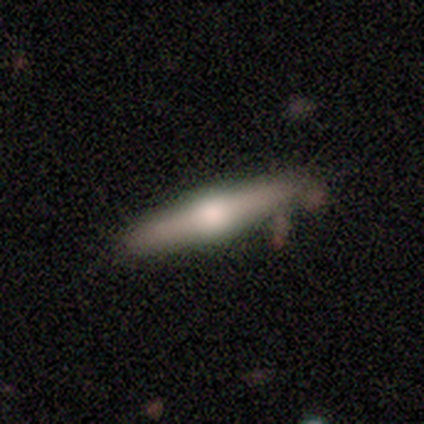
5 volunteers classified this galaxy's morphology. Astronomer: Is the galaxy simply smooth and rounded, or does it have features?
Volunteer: smooth — 80%.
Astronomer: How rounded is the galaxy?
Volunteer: cigar-shaped — 100%.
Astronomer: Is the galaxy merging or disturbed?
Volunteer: none — 80%.